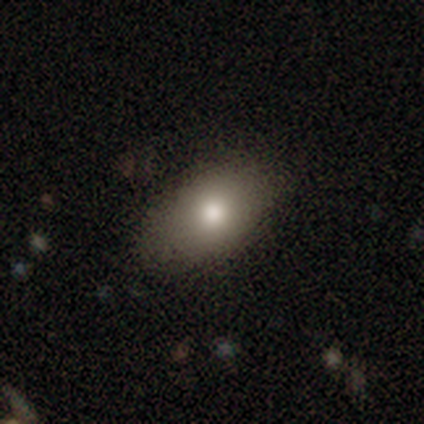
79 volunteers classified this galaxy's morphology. Q: Smooth or featured?
A: smooth (87%); runner-up: star or artifact (8%)
Q: How rounded?
A: in between (84%); runner-up: round (14%)
Q: Merging?
A: none (48%); runner-up: minor disturbance (4%)